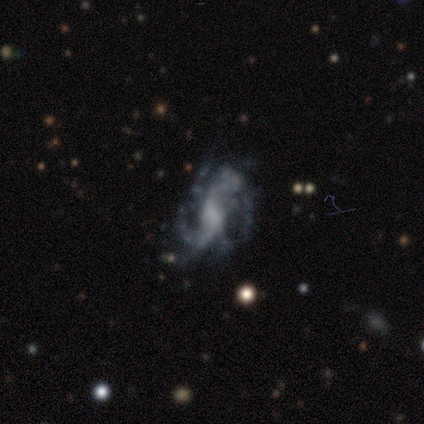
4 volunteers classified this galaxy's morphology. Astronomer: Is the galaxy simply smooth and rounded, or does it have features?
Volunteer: featured or disk — 75%.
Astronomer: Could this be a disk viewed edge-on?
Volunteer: no — 100%.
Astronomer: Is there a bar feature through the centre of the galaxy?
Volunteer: strong — 33%, tied with weak and no at 33%.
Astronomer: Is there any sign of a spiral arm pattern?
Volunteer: yes — 100%.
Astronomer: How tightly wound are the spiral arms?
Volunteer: tight — 33%, tied with medium and loose at 33%.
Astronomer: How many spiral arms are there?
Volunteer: more than 4 — 67%.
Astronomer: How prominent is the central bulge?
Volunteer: none — 67%.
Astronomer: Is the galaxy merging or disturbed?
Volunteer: major disturbance — 67%.